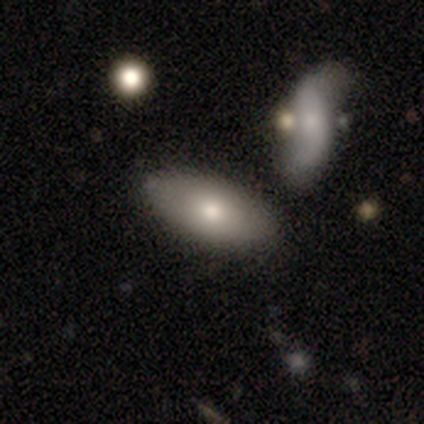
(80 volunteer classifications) Volunteers were most divided on "merging": none: 43%, merger: 25%, minor disturbance: 7%, major disturbance: 1%. More confident: how rounded — in between (92%); smooth or featured — smooth (78%).